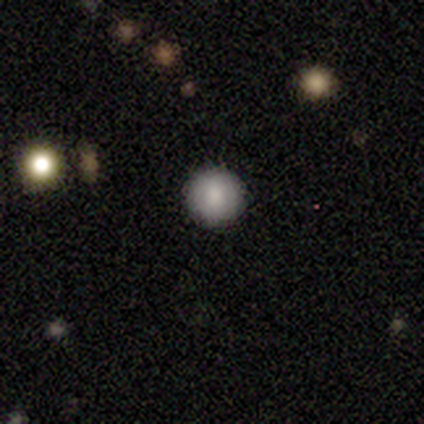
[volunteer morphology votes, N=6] Smooth or featured? 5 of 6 (83%) said smooth. How rounded? 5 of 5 (100%) said round. Merging? 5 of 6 (83%) said none.